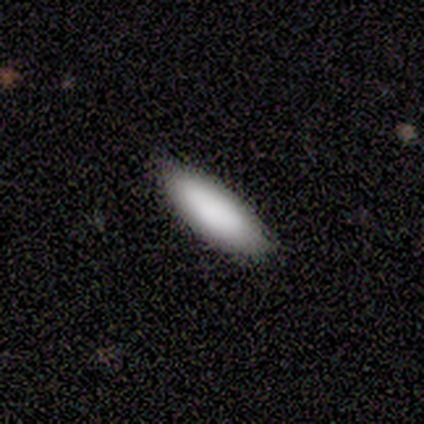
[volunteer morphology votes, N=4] Q: Smooth or featured?
A: smooth (100%)
Q: How rounded?
A: in between (75%); runner-up: cigar-shaped (25%)
Q: Merging?
A: none (100%)